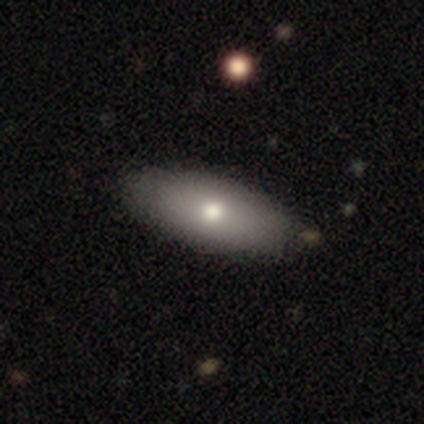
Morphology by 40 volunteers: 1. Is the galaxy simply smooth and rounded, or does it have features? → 68% smooth, 30% featured or disk, 2% star or artifact.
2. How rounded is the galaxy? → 89% in between, 7% cigar-shaped, 4% round.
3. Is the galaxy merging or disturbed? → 69% none, 8% merger, 3% major disturbance, 0% minor disturbance.